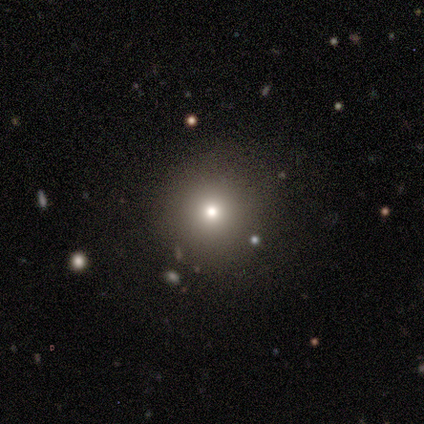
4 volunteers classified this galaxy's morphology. smooth 75%, star or artifact 25%, featured or disk 0%. Down the decision tree: how rounded — round (100%); merging — none (67%).